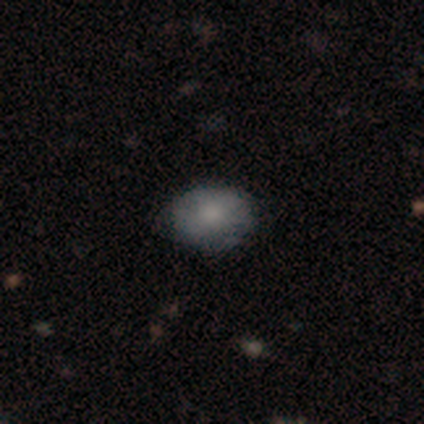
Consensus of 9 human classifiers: Smooth or featured?
  - smooth: 89% *
  - featured or disk: 11%
  - star or artifact: 0%
How rounded?
  - in between: 75% *
  - round: 25%
  - cigar-shaped: 0%
Merging?
  - none: 100% *
  - minor disturbance: 0%
  - major disturbance: 0%
  - merger: 0%